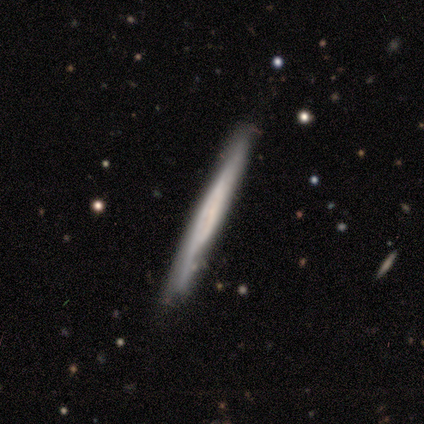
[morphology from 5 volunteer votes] type=featured or disk (80%); edge-on=yes (100%); edge-on bulge=none (50%, tied with rounded); merging=none (80%).